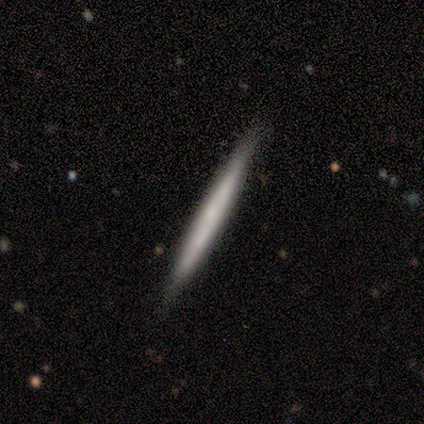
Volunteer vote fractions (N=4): smooth 50% (tied), featured or disk 50% (tied), star or artifact 0%. Down the decision tree: how rounded — cigar-shaped (100%); merging — none (100%).